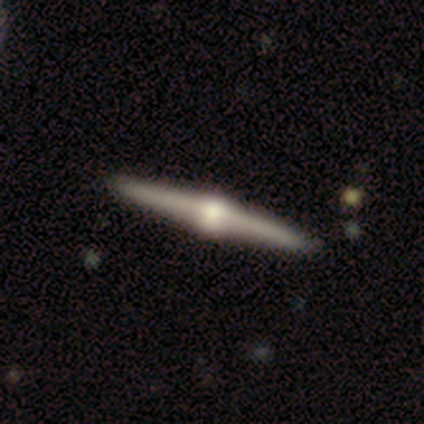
A featured or disk galaxy (83%) viewed edge-on (100%) with a rounded central bulge (100%).

Vote fractions:
- Smooth or featured? featured or disk: 83% / smooth: 17% / star or artifact: 0%
- Edge-on disk? yes: 100% / no: 0%
- Edge-on bulge? rounded: 100% / boxy: 0% / none: 0%
- Merging? none: 83% / major disturbance: 17% / minor disturbance: 0% / merger: 0%